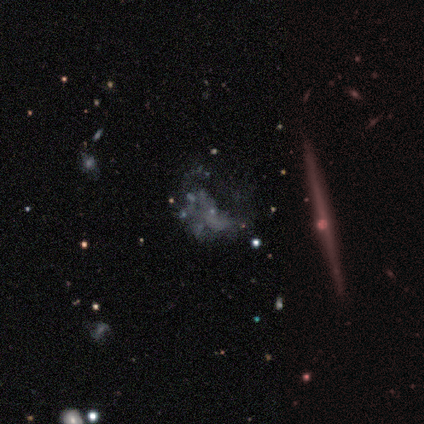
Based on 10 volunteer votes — smooth_or_featured: featured or disk (p=1.00)
disk_edge_on: no (p=0.80) [alt: yes p=0.20]
bar: no (p=1.00)
has_spiral_arms: no (p=0.88) [alt: yes p=0.12]
bulge_size: none (p=0.62) [alt: small p=0.38]
merging: none (p=0.60) [alt: major disturbance p=0.40]